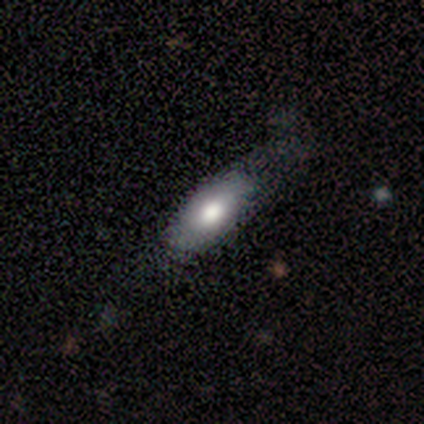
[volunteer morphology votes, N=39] Q: Smooth or featured?
A: smooth (67%); runner-up: featured or disk (33%)
Q: How rounded?
A: in between (85%); runner-up: cigar-shaped (12%)
Q: Merging?
A: none (38%); runner-up: major disturbance (15%)